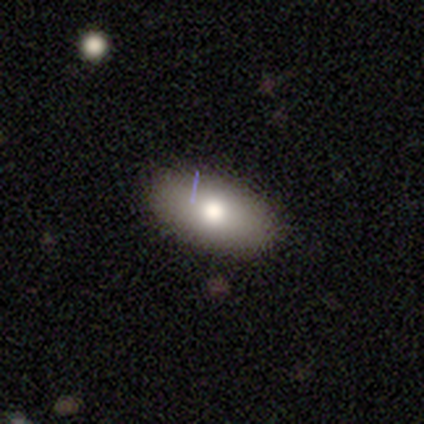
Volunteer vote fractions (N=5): Q: Smooth or featured?
A: smooth (60%); runner-up: featured or disk (40%)
Q: How rounded?
A: in between (100%)
Q: Merging?
A: none (80%); runner-up: minor disturbance (20%)